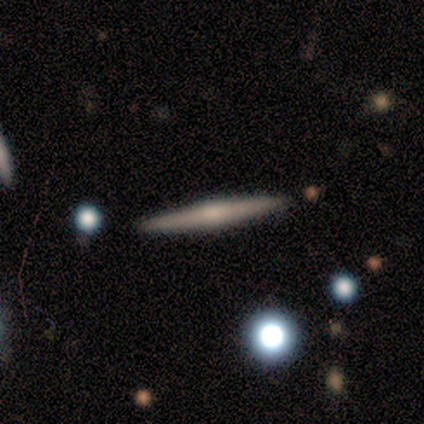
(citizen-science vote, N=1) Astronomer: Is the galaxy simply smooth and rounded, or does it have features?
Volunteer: featured or disk — 100%.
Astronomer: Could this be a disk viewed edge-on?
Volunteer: yes — 100%.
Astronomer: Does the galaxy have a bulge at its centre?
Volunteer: rounded — 100%.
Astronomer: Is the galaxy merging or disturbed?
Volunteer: none — 100%.